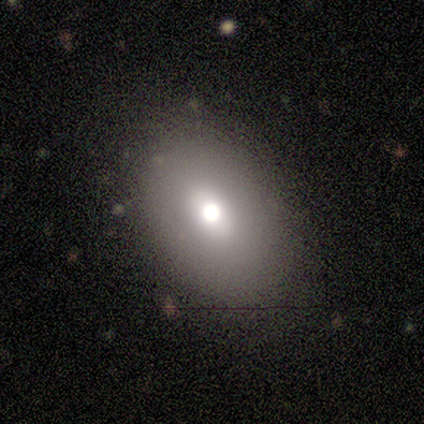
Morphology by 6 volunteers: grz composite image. It shows a smooth galaxy with no disk features (50%) that is in between round and cigar-shaped (67%). Merging: none (100%).